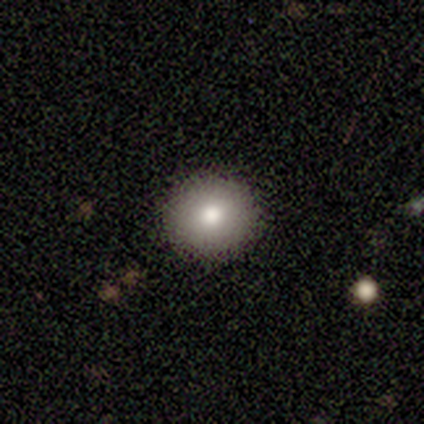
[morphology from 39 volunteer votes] Smooth or featured: smooth — 74% (star or artifact — 15%)
How rounded: round — 90% (in between — 10%)
Merging: none — 97% (minor disturbance — 3%)